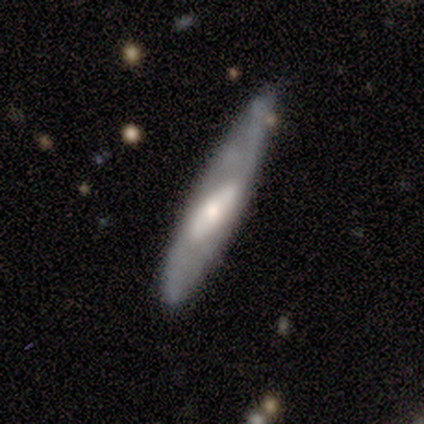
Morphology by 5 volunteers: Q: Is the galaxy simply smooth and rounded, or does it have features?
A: featured or disk — 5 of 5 (100%).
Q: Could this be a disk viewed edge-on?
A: no — 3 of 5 (60%).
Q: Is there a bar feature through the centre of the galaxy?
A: no — 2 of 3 (67%).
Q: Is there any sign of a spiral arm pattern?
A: no — 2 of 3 (67%).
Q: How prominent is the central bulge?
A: moderate — 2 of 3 (67%).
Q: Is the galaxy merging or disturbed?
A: minor disturbance — 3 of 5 (60%).